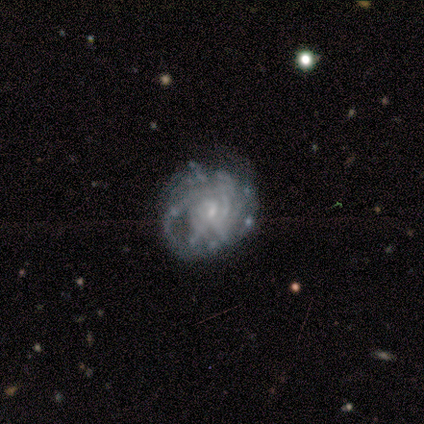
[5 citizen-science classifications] Smooth or featured? 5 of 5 (100%) said featured or disk. Edge-on disk? 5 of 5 (100%) said no. Bar? 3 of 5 (60%) said weak. Spiral arms? 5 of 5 (100%) said yes. Spiral winding? 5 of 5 (100%) said tight. Spiral arm count? 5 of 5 (100%) said can't tell. Bulge size? 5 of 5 (100%) said small. Merging? 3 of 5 (60%) said minor disturbance.